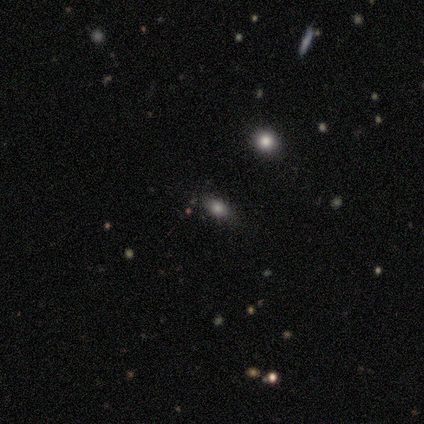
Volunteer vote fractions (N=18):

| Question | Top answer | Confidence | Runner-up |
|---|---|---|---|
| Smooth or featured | smooth | 83% | star or artifact (17%) |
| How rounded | in between | 67% | round (20%) |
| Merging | none | 87% | minor disturbance (13%) |